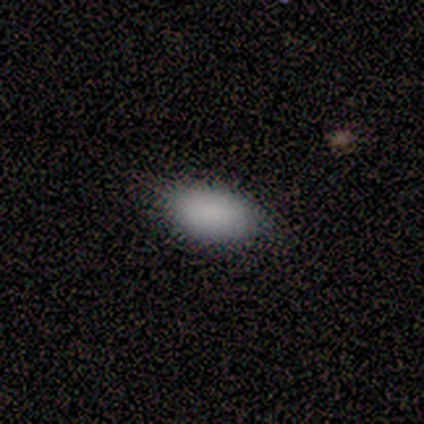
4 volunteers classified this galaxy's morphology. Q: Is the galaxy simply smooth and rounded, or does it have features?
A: smooth — 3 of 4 (75%).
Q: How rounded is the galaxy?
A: in between — 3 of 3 (100%).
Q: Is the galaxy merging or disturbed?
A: none — 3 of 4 (75%).